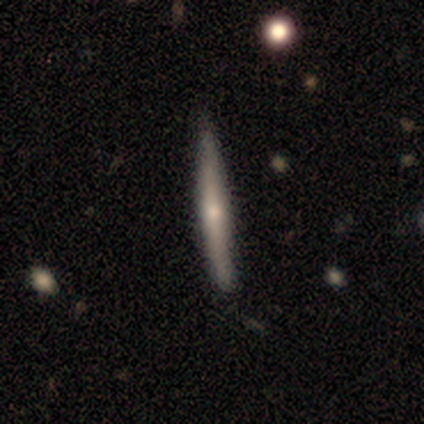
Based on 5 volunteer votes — Smooth or featured: featured or disk — 60% (smooth — 40%)
Edge-on disk: yes — 100%
Edge-on bulge: none — 67% (rounded — 33%)
Merging: none — 100%